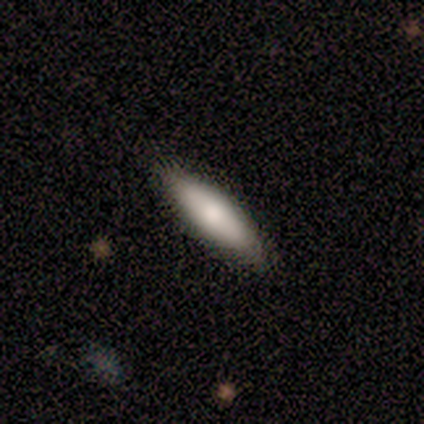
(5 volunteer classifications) Morphology: type=smooth (60%); roundness=cigar-shaped (67%); merging=none (100%).